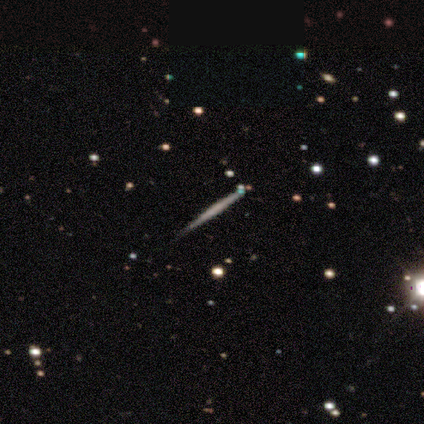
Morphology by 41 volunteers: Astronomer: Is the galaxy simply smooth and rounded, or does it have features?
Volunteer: featured or disk — 68%.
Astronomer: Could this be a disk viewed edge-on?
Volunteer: yes — 100%.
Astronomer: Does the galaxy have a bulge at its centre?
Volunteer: none — 93%.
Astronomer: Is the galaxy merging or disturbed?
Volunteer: none — 82%.